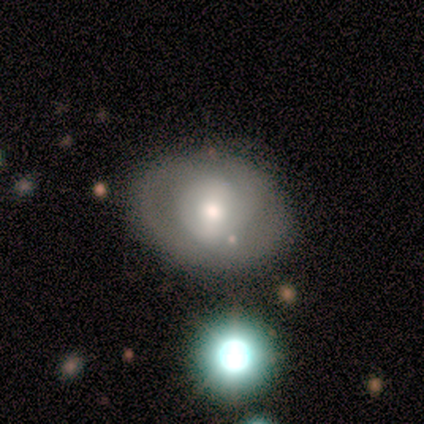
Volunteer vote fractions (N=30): Overall: smooth (53%; featured or disk 40%). How rounded: in between (56%; round 44%). Merging: merger (43%; none 14%).